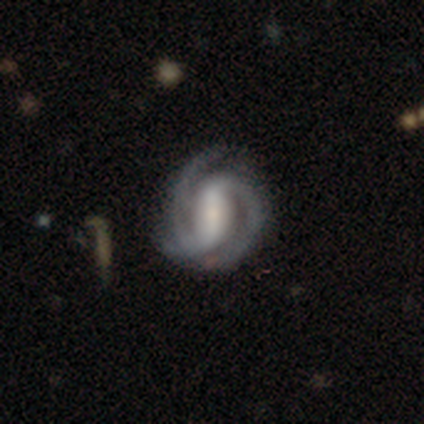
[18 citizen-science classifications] This appears to be a featured or disk galaxy (83%) with a strong bar (73%), 2 (67%) tight (53%) spiral arms (100%) and a small central bulge (53%). Merging: none (82%).